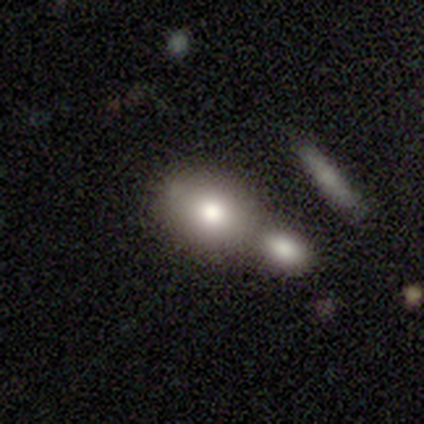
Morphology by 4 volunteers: This appears to be a smooth galaxy with no disk features (75%) that is in between round and cigar-shaped (100%). Merging: none (100%).